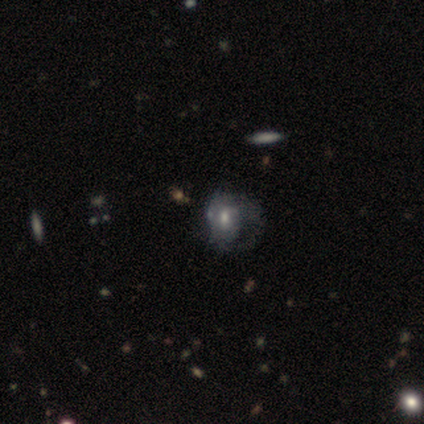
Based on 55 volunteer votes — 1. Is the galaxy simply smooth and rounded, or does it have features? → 67% featured or disk, 25% smooth, 7% star or artifact.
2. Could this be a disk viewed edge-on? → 97% no, 3% yes.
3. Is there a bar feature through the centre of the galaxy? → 50% no, 44% weak, 6% strong.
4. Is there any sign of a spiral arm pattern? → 64% yes, 36% no.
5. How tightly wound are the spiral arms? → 61% tight, 30% medium, 9% loose.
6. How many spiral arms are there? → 35% 1 (tied), 35% can't tell (tied), 26% 2, 4% more than 4, 0% 3, 0% 4.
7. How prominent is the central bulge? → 69% moderate, 17% small, 8% large, 6% none, 0% dominant.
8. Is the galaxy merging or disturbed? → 59% major disturbance, 20% none, 20% minor disturbance, 2% merger.